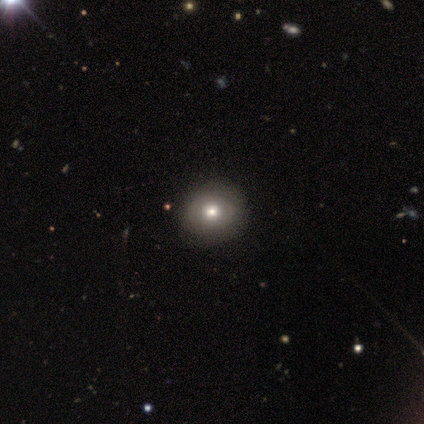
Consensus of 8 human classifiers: Overall: smooth (75%). How rounded: round (100%). Merging: none (86%).